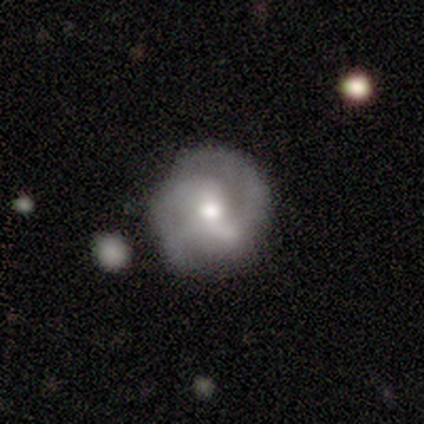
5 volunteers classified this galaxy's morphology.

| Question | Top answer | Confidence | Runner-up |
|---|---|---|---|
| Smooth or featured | featured or disk | 100% | — |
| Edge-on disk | no | 100% | — |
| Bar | weak | 40% | tied: no (40%) |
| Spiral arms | yes | 100% | — |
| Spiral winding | medium | 60% | tight (20%) |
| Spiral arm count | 2 | 100% | — |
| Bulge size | moderate | 80% | small (20%) |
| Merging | none | 100% | — |